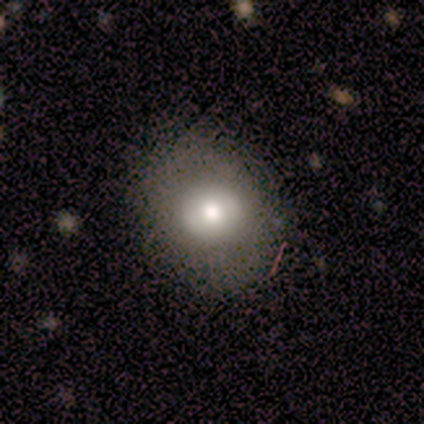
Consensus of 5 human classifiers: smooth-or-featured: smooth: 80% | star or artifact: 20% | featured or disk: 0%
  how-rounded: round: 100% | in between: 0% | cigar-shaped: 0%
  merging: none: 100% | minor disturbance: 0% | major disturbance: 0% | merger: 0%